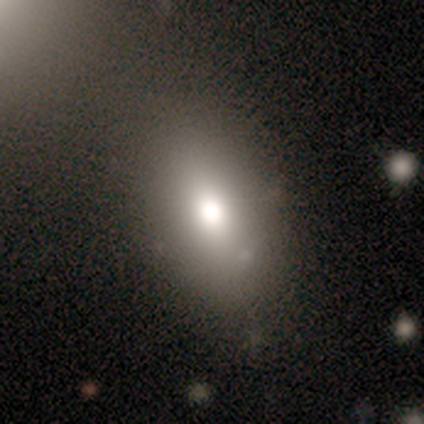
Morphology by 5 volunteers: Overall: smooth (100%). How rounded: in between (100%). Merging: none (80%).